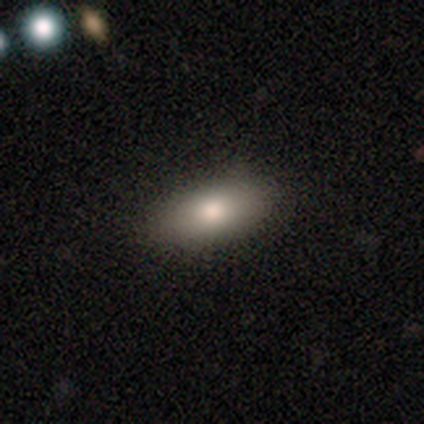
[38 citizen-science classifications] Smooth or featured? 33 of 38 (87%) said smooth. How rounded? 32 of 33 (97%) said in between. Merging? 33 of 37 (89%) said none.